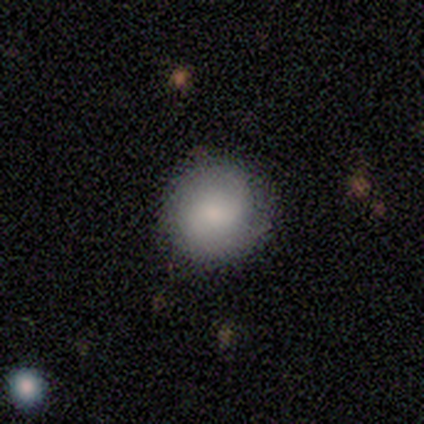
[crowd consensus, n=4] Morphology: type=smooth (75%); roundness=in between (67%); merging=none (100%).